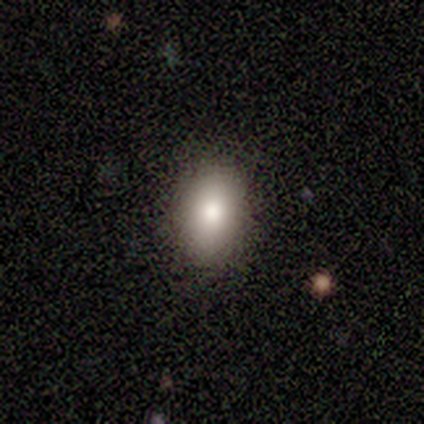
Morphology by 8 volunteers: Overall: smooth (75%). How rounded: in between (67%; round 33%). Merging: none (75%).